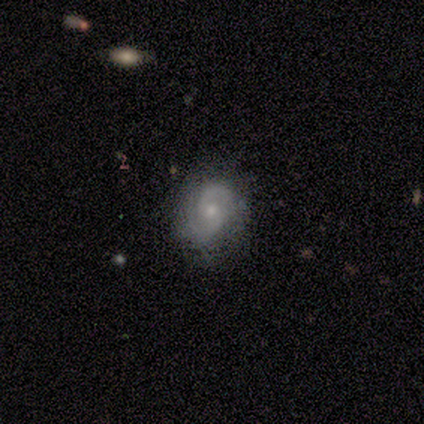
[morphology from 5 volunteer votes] A featured or disk galaxy (100%) with no bar (60%), 2 (80%) medium (60%) spiral arms (100%) and a small central bulge (60%). Merging: none (60%).